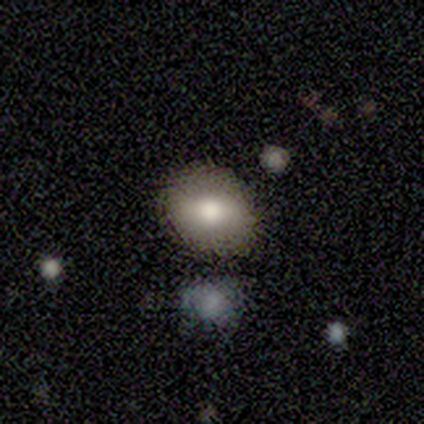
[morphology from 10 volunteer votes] Smooth or featured? 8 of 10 (80%) said smooth. How rounded? 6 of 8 (75%) said round. Merging? 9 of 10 (90%) said none.